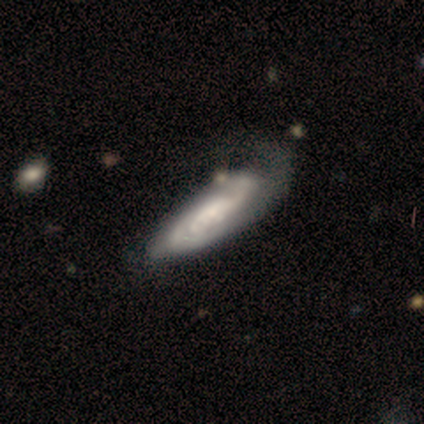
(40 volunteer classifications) Overall: featured or disk (85%). Edge-on disk: no (91%). Bar: no (55%; weak 26%). Spiral arms: yes (90%). Spiral arm count: can't tell (57%; 2 21%). Spiral winding: tight (46%; loose 32%). Bulge size: small (45%; moderate 29%). Merging: major disturbance (26%; none 23%).